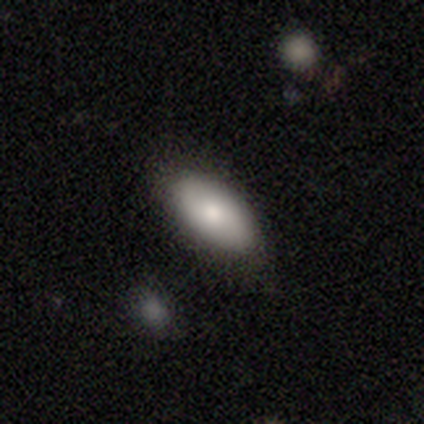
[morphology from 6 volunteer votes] Q: Smooth or featured?
A: smooth (50%); runner-up: featured or disk (33%)
Q: How rounded?
A: in between (100%)
Q: Merging?
A: none (80%); runner-up: minor disturbance (20%)